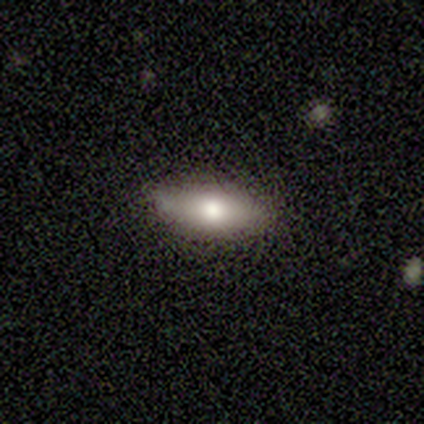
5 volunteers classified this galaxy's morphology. smooth-or-featured: smooth: 60% | featured or disk: 40% | star or artifact: 0%
  how-rounded: in between: 100% | round: 0% | cigar-shaped: 0%
  merging: none: 80% | minor disturbance: 20% | major disturbance: 0% | merger: 0%